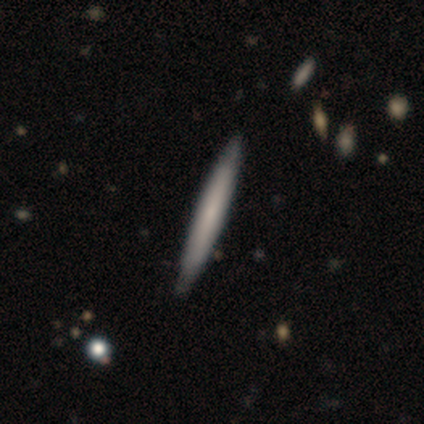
A smooth galaxy with no disk features (60%) that is cigar-shaped (100%).

Vote fractions:
- Smooth or featured? smooth: 60% / featured or disk: 40% / star or artifact: 0%
- How rounded? cigar-shaped: 100% / round: 0% / in between: 0%
- Merging? none: 100% / minor disturbance: 0% / major disturbance: 0% / merger: 0%